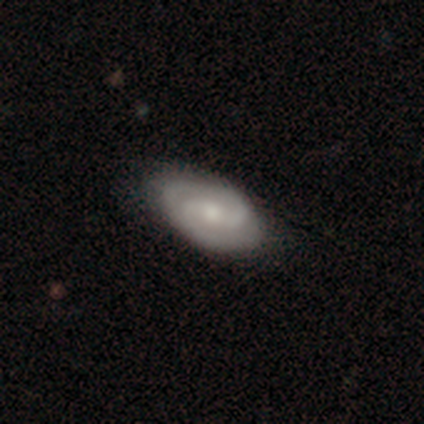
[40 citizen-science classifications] Morphology: type=featured or disk (88%); edge-on=no (97%); bar=weak (56%); spiral arms=yes (91%); winding=tight (48%); arm count=2 (90%); bulge=moderate (56%); merging=none (51%).